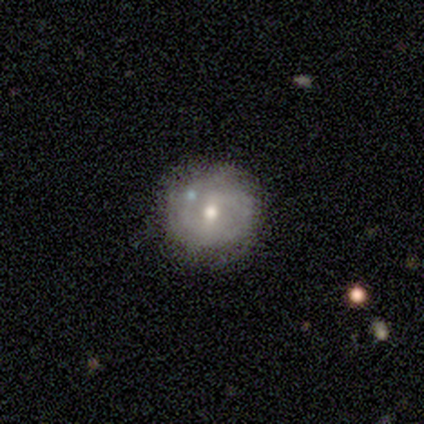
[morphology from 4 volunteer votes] Volunteers were most divided on "merging": none: 75%, minor disturbance: 25%, major disturbance: 0%, merger: 0%. More confident: smooth or featured — smooth (100%); how rounded — round (100%).